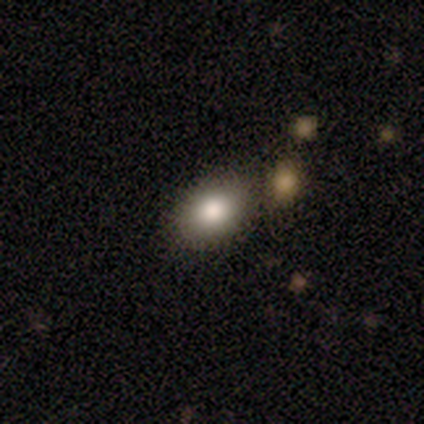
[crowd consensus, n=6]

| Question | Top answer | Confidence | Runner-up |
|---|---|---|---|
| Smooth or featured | smooth | 83% | featured or disk (17%) |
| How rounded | in between | 80% | round (20%) |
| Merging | none | 83% | minor disturbance (17%) |